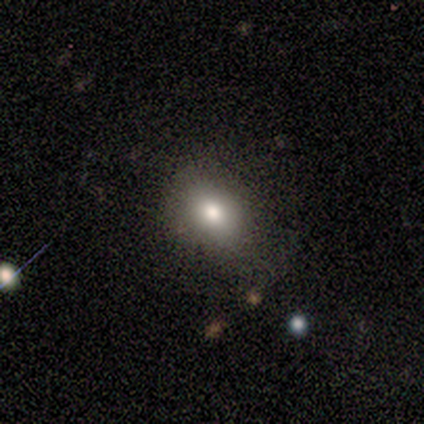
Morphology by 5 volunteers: Volunteers were most divided on "how rounded": in between: 60%, round: 40%, cigar-shaped: 0%. More confident: smooth or featured — smooth (100%); merging — none (100%).